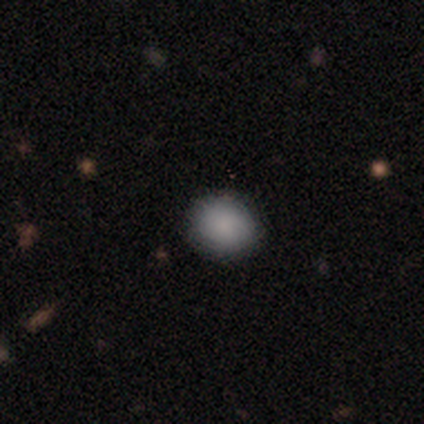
Morphology: type=smooth (100%); roundness=round (40%, tied with in between); merging=none (80%).